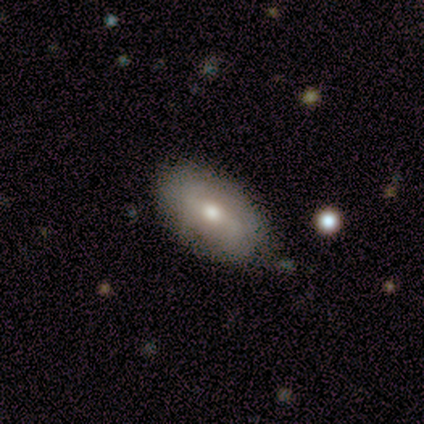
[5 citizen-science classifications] Q: Smooth or featured?
A: featured or disk (60%); runner-up: smooth (40%)
Q: Edge-on disk?
A: no (100%)
Q: Bar?
A: strong (67%); runner-up: no (33%)
Q: Spiral arms?
A: no (67%); runner-up: yes (33%)
Q: Bulge size?
A: moderate (100%)
Q: Merging?
A: none (80%); runner-up: minor disturbance (20%)